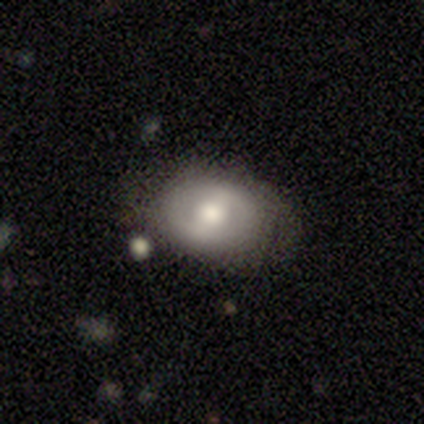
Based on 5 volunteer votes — Volunteers were most divided on "bar" (2-way tie): weak: 50%, no: 50%, strong: 0%. More confident: edge-on disk — no (100%); smooth or featured — featured or disk (80%); spiral arms — no (75%); merging — none (60%); bulge size — moderate (50%).